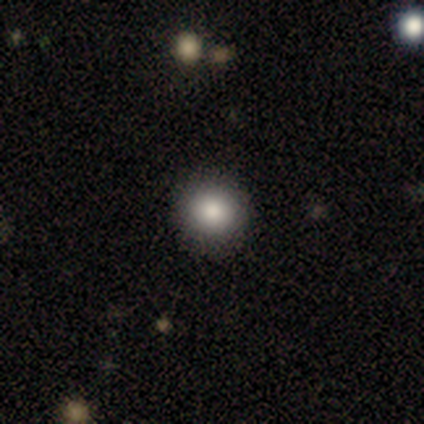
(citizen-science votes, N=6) This appears to be a smooth galaxy with no disk features (100%) that is round (83%). Merging: none (83%).